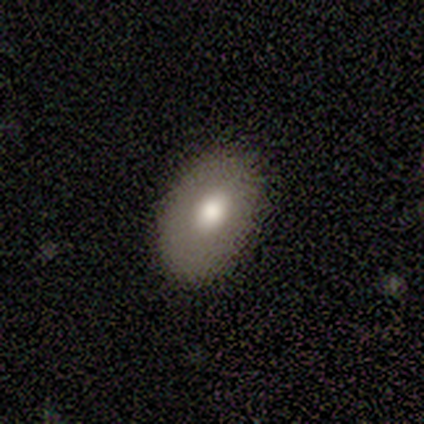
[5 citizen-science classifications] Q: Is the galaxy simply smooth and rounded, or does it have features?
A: smooth — 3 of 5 (60%).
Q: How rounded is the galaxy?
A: in between — 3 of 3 (100%).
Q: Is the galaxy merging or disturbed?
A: none — 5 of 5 (100%).